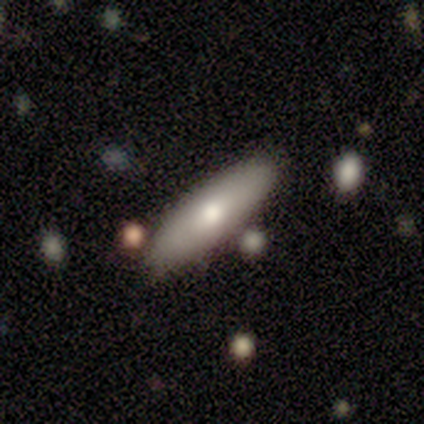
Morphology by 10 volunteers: smooth_or_featured: featured or disk (p=0.60) [alt: smooth p=0.40]
disk_edge_on: yes (p=0.67) [alt: no p=0.33]
edge_on_bulge: rounded (p=1.00)
merging: none (p=0.80) [alt: minor disturbance p=0.10]